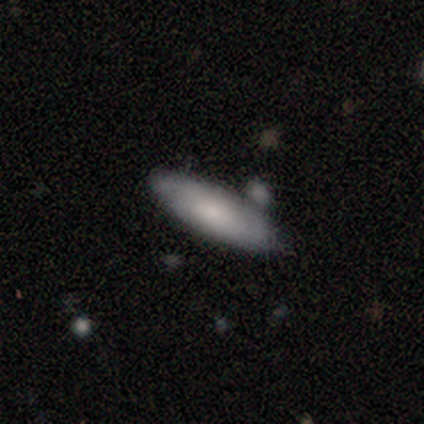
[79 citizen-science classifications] smooth_or_featured: smooth (p=0.73) [alt: featured or disk p=0.24]
how_rounded: in between (p=0.62) [alt: cigar-shaped p=0.38]
merging: none (p=0.36) [alt: merger p=0.27]